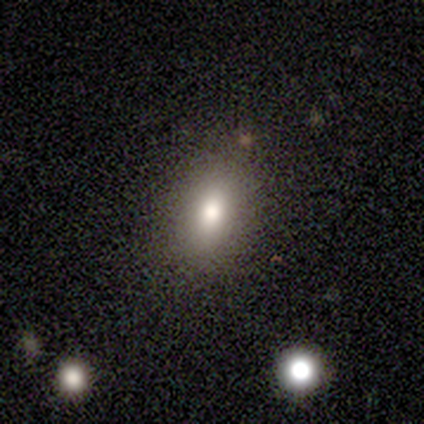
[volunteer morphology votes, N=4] Smooth or featured?
  - smooth: 75% *
  - star or artifact: 25%
  - featured or disk: 0%
How rounded?
  - in between: 67% *
  - round: 33%
  - cigar-shaped: 0%
Merging?
  - none: 100% *
  - minor disturbance: 0%
  - major disturbance: 0%
  - merger: 0%